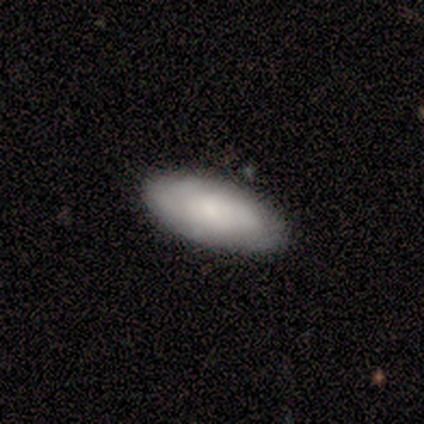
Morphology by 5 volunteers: Overall: smooth (80%). How rounded: in between (75%). Merging: none (100%).